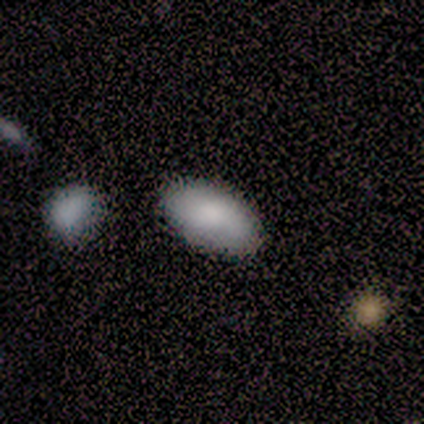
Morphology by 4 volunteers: Overall: smooth (100%). How rounded: in between (100%). Merging: none (75%).